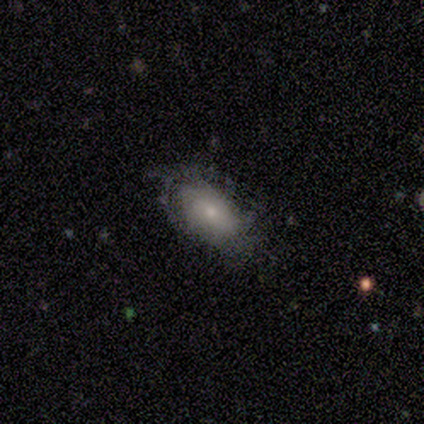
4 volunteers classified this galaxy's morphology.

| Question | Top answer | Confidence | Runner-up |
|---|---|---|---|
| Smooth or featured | smooth | 50% | tied: featured or disk (50%) |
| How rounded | in between | 100% | — |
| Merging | none | 75% | major disturbance (25%) |